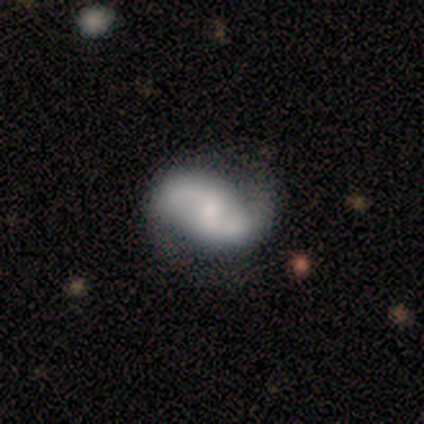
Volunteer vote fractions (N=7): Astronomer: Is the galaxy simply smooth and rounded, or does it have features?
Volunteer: featured or disk — 71%.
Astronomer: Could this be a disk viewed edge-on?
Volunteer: no — 100%.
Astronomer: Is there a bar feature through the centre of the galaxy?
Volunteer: no — 60% (runner-up: weak, 40%).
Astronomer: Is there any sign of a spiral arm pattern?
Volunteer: yes — 80%.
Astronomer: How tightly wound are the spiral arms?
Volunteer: loose — 100%.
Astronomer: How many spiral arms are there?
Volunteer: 2 — 100%.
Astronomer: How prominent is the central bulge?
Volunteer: small — 80%.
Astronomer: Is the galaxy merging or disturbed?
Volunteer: none — 71%.